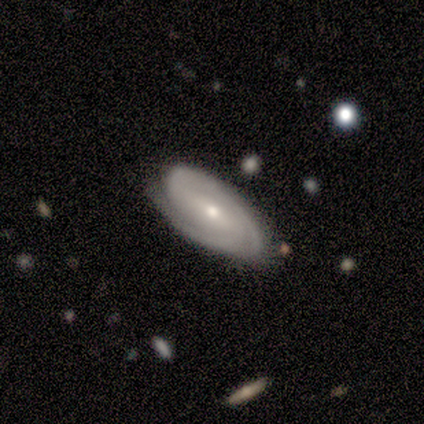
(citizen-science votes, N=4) Smooth or featured?
  - smooth: 50% *
  - featured or disk: 25%
  - star or artifact: 25%
How rounded?
  - in between: 100% *
  - round: 0%
  - cigar-shaped: 0%
Merging?
  - none: 100% *
  - minor disturbance: 0%
  - major disturbance: 0%
  - merger: 0%